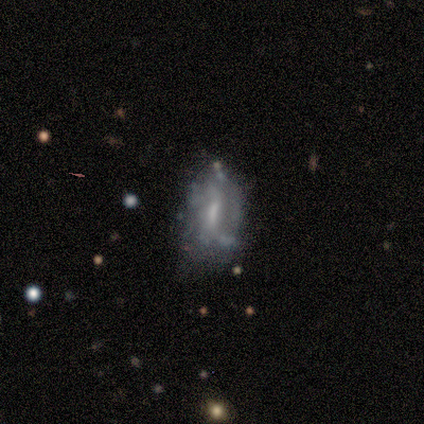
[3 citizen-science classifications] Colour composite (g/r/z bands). It shows a star or artifact, not a galaxy (67%).